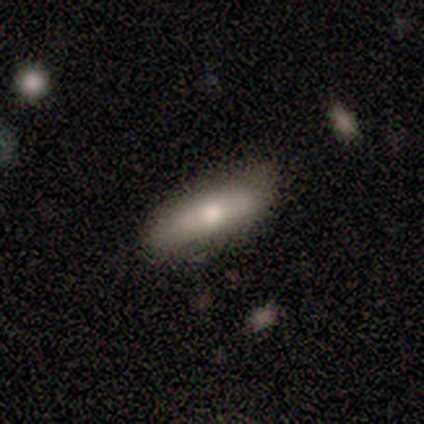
Smooth or featured? 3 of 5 (60%) said smooth. How rounded? 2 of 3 (67%) said cigar-shaped. Merging? 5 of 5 (100%) said none.